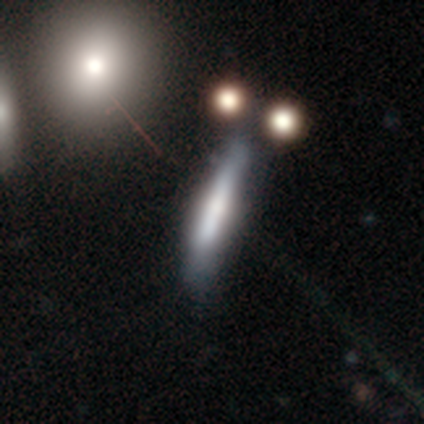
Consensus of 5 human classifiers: smooth_or_featured: smooth (p=0.60) [alt: featured or disk p=0.40]
how_rounded: cigar-shaped (p=1.00)
merging: minor disturbance (p=0.80) [alt: none p=0.20]